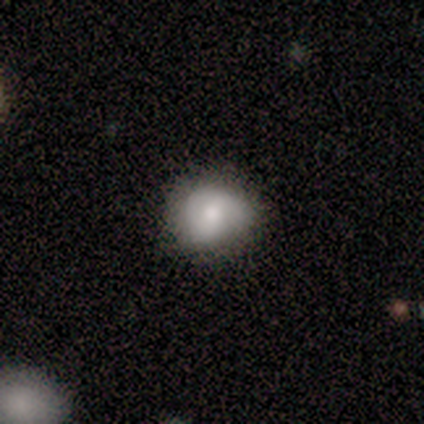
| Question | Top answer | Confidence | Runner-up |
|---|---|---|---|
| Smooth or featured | smooth | 70% | featured or disk (30%) |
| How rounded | round | 86% | in between (14%) |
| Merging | none | 80% | minor disturbance (20%) |